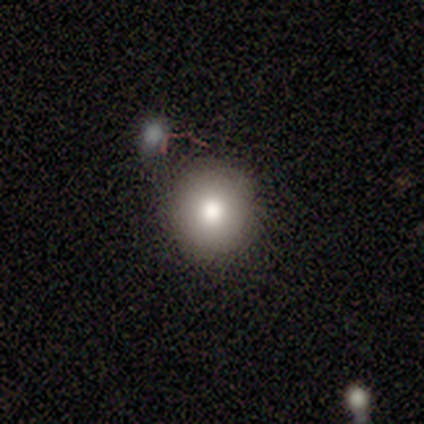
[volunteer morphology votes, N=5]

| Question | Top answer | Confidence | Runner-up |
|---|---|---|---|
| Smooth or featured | smooth | 80% | star or artifact (20%) |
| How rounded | round | 100% | — |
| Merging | none | 100% | — |